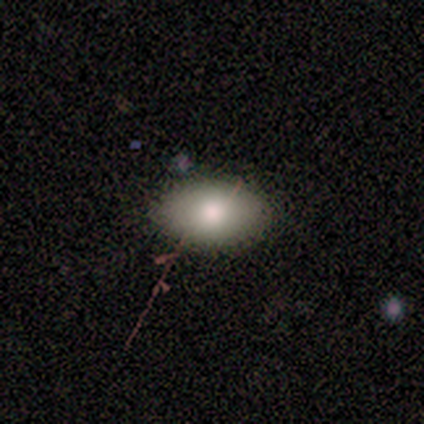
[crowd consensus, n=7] Q: Smooth or featured?
A: smooth (86%); runner-up: star or artifact (14%)
Q: How rounded?
A: in between (100%)
Q: Merging?
A: none (83%); runner-up: minor disturbance (17%)